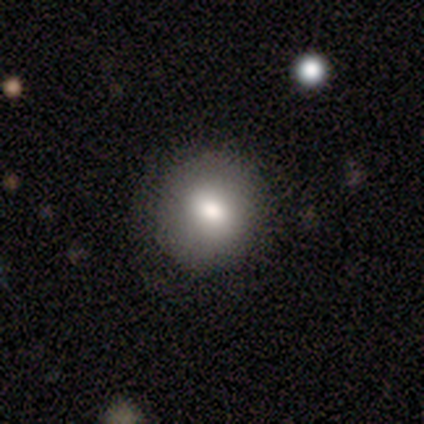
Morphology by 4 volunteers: Smooth or featured? 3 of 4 (75%) said smooth. How rounded? 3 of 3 (100%) said round. Merging? 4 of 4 (100%) said none.